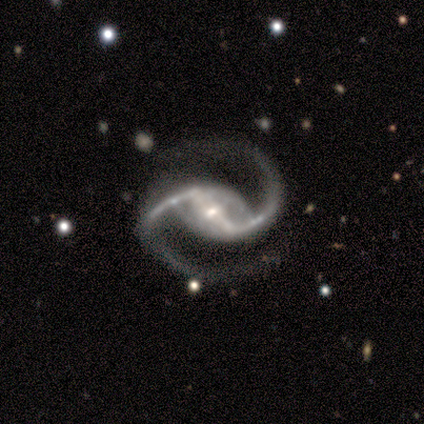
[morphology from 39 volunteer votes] smooth-or-featured: featured or disk: 95% | smooth: 3% | star or artifact: 3%
  disk-edge-on: no: 97% | yes: 3%
    bar: strong: 78% | weak: 19% | no: 3%
    has-spiral-arms: yes: 97% | no: 3%
      spiral-winding: loose: 57% | medium: 37% | tight: 6%
      spiral-arm-count: 2: 100% | 1: 0% | 3: 0% | 4: 0% | more than 4: 0% | can't tell: 0%
    bulge-size: small: 72% | moderate: 19% | large: 6% | dominant: 3% | none: 0%
  merging: none: 79% | minor disturbance: 16% | major disturbance: 5% | merger: 0%